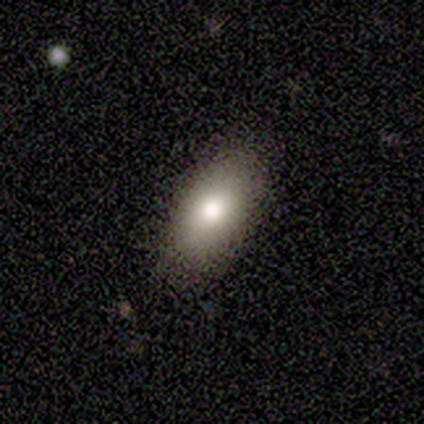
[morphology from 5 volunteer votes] A smooth galaxy with no disk features (60%) that is in between round and cigar-shaped (67%). Merging: none (100%).